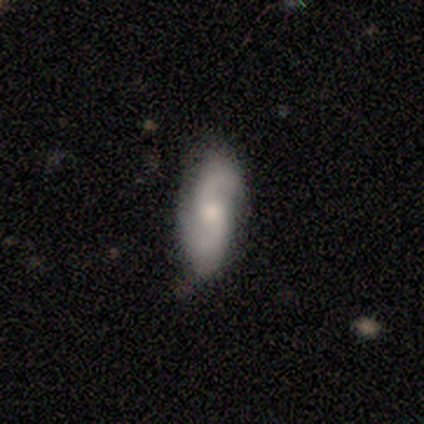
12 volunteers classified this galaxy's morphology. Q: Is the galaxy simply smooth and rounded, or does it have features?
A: featured or disk — 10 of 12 (83%).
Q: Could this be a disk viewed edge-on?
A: no — 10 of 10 (100%).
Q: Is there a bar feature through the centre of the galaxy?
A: no — 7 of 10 (70%).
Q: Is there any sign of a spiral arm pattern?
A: yes — 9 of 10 (90%).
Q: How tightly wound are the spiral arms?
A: loose — 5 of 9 (56%).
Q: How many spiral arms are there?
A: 2 — 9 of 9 (100%).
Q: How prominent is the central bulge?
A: moderate — 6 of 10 (60%).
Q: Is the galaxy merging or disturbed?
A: none — 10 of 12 (83%).